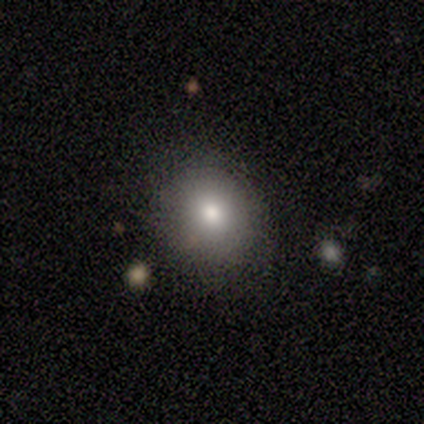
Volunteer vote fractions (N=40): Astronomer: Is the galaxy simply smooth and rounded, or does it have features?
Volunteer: smooth — 75%.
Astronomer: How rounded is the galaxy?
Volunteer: round — 70%.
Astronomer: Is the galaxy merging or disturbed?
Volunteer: none — 82%.